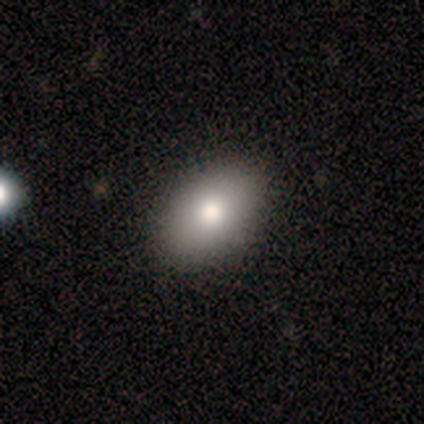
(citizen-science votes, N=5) Smooth or featured? 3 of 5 (60%) said smooth. How rounded? 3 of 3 (100%) said in between. Merging? 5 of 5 (100%) said none.